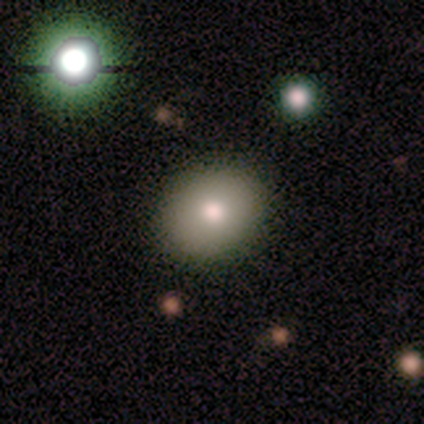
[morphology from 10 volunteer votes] smooth 70%, star or artifact 20%, featured or disk 10%. Down the decision tree: how rounded — round (71%); merging — none (100%).